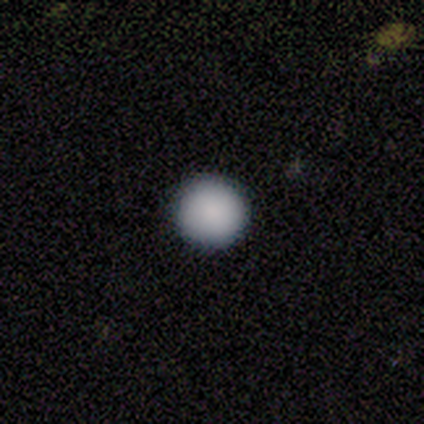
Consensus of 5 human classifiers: Q: Smooth or featured?
A: smooth (80%); runner-up: featured or disk (20%)
Q: How rounded?
A: round (100%)
Q: Merging?
A: none (80%); runner-up: minor disturbance (20%)